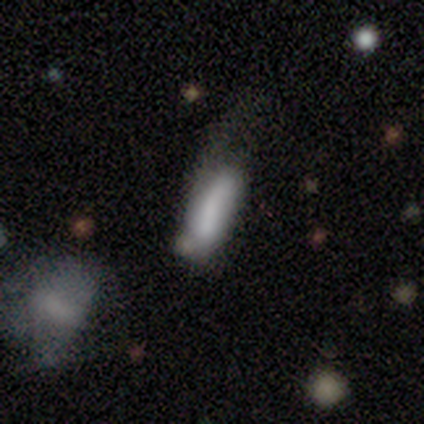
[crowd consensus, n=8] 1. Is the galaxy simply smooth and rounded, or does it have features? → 50% smooth (tied), 50% featured or disk (tied), 0% star or artifact.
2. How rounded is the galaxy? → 75% cigar-shaped, 25% in between, 0% round.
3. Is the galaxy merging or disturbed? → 50% major disturbance, 25% none, 12% minor disturbance, 12% merger.